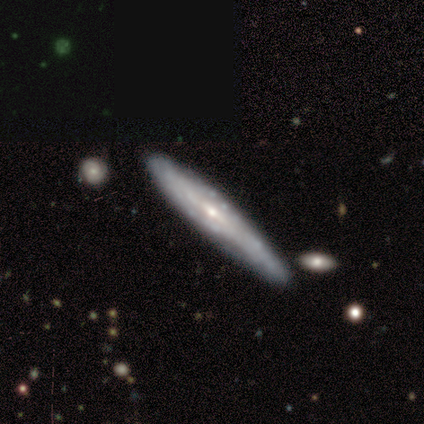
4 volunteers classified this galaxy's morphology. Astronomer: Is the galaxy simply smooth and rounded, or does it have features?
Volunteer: featured or disk — 100%.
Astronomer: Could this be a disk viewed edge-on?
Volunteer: yes — 75%.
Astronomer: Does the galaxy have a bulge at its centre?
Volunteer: rounded — 67%.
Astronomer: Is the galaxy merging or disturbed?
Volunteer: none — 75%.